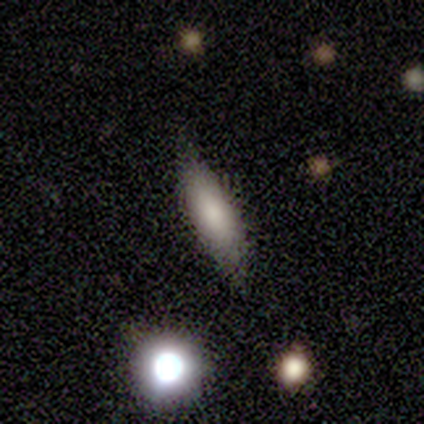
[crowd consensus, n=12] Smooth or featured? 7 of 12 (58%) said smooth. How rounded? 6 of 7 (86%) said cigar-shaped. Merging? 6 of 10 (60%) said none.